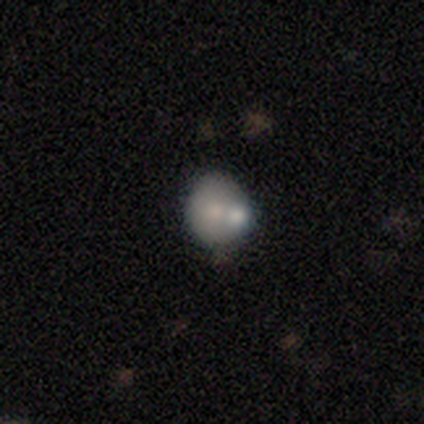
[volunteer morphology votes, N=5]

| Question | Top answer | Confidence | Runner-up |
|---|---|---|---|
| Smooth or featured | smooth | 60% | featured or disk (40%) |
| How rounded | round | 67% | in between (33%) |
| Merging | none | 40% | tied: merger (40%) |